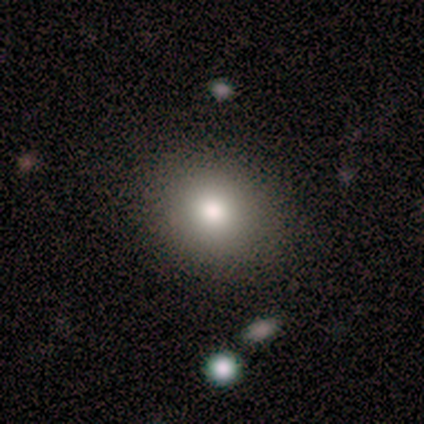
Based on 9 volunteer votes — Morphology: type=smooth (100%); roundness=round (89%); merging=none (89%).